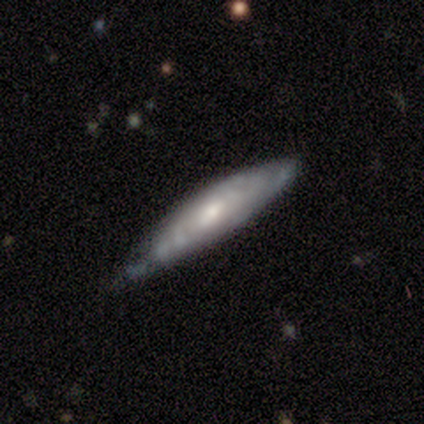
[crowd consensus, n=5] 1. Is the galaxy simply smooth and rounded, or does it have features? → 60% featured or disk, 40% smooth, 0% star or artifact.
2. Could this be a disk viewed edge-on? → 67% no, 33% yes.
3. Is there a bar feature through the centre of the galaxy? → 50% strong (tied), 50% weak (tied), 0% no.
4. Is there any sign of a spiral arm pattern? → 100% yes, 0% no.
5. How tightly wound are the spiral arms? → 100% tight, 0% medium, 0% loose.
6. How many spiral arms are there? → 100% can't tell, 0% 1, 0% 2, 0% 3, 0% 4, 0% more than 4.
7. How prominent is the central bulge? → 50% moderate (tied), 50% small (tied), 0% dominant, 0% large, 0% none.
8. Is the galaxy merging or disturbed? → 100% none, 0% minor disturbance, 0% major disturbance, 0% merger.